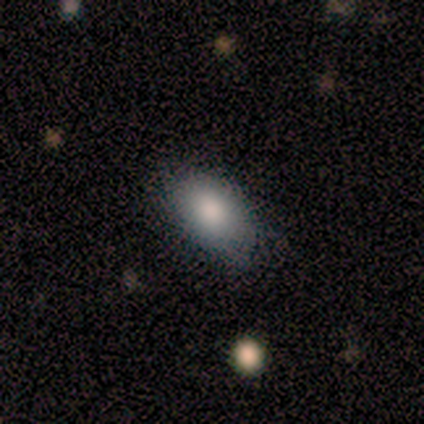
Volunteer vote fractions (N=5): Q: Smooth or featured?
A: smooth (80%); runner-up: star or artifact (20%)
Q: How rounded?
A: in between (100%)
Q: Merging?
A: none (75%); runner-up: minor disturbance (25%)